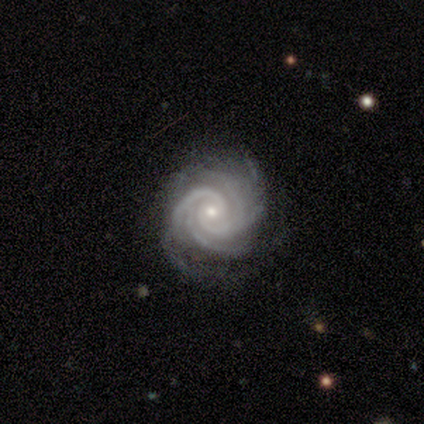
This is clearly a featured or disk galaxy (95%). It is clearly not viewed edge-on (97%). Bar: likely no (78%). Spiral arm pattern: clearly yes (100%). Spiral arm count: marginally 4 (39%). Spiral winding: clearly tight (81%). Central bulge: likely small (72%). Merging: likely none (73%).